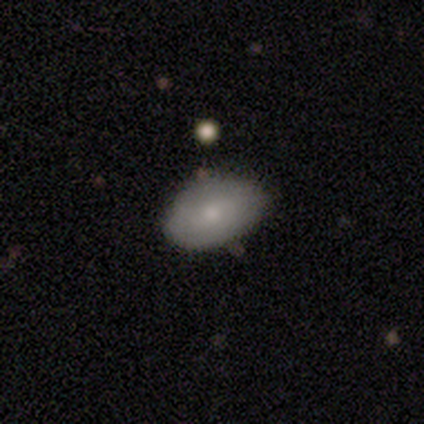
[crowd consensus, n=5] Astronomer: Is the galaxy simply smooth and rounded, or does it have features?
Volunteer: smooth — 60%.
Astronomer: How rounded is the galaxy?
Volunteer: in between — 100%.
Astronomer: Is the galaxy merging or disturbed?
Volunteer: none — 75%.